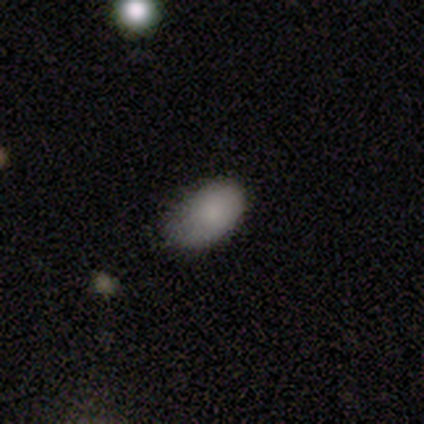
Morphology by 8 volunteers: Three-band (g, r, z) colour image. It shows a smooth galaxy with no disk features (100%) that is in between round and cigar-shaped (100%). Merging: none (62%).